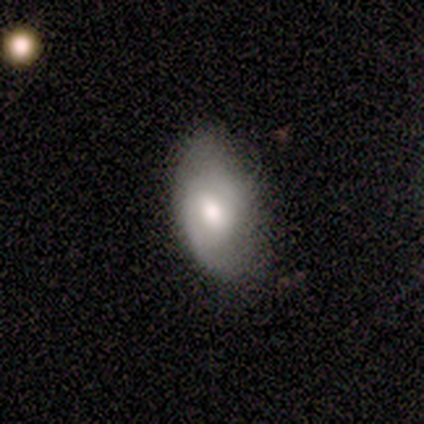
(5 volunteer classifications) A featured or disk galaxy (80%) with a weak bar (75%), 2 (75%) medium (50%) spiral arms (100%) and a large central bulge (50%, tied with moderate).

Vote fractions:
- Smooth or featured? featured or disk: 80% / smooth: 20% / star or artifact: 0%
- Edge-on disk? no: 100% / yes: 0%
- Bar? weak: 75% / no: 25% / strong: 0%
- Spiral arms? yes: 100% / no: 0%
- Spiral winding? medium: 50% / tight: 25% / loose: 25%
- Spiral arm count? 2: 75% / can't tell: 25% / 1: 0% / 3: 0% / 4: 0% / more than 4: 0%
- Bulge size? large: 50% (tied) / moderate: 50% (tied) / dominant: 0% / small: 0% / none: 0%
- Merging? none: 100% / minor disturbance: 0% / major disturbance: 0% / merger: 0%